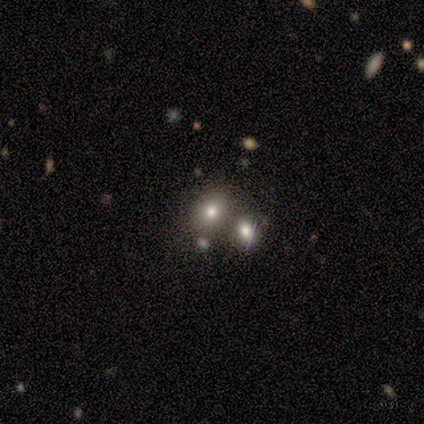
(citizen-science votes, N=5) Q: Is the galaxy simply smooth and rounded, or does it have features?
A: smooth — 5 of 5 (100%).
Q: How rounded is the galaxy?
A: in between — 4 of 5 (80%).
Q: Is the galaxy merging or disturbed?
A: none — 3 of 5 (60%).